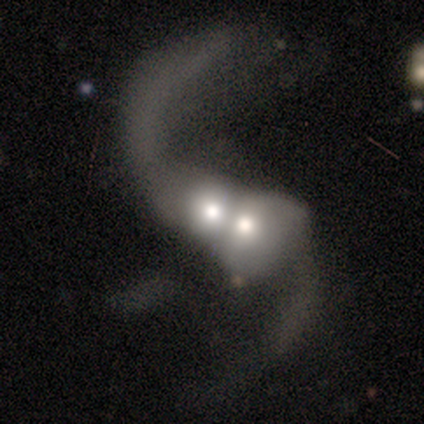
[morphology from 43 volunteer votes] Smooth or featured? featured or disk (74%)
Edge-on disk? no (97%)
Bar? no (58%)
Spiral arms? yes (74%)
Spiral winding? loose (96%)
Spiral arm count? 2 (87%)
Bulge size? moderate (52%)
Merging? merger (92%)